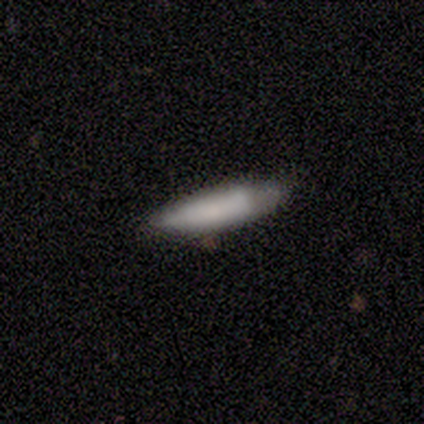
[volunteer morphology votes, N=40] This appears to be a smooth galaxy with no disk features (78%) that is cigar-shaped (74%). Merging: none (42%).